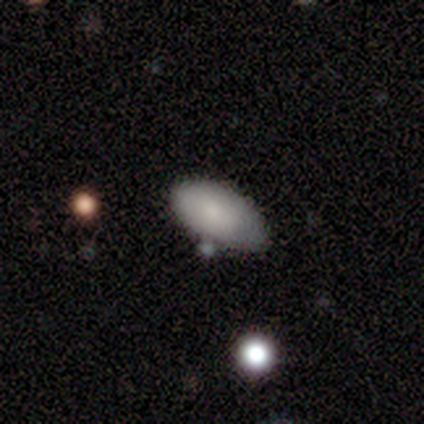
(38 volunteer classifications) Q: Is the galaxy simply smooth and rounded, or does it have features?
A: smooth — 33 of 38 (87%).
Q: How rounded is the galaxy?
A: in between — 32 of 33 (97%).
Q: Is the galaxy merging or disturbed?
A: none — 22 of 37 (59%).